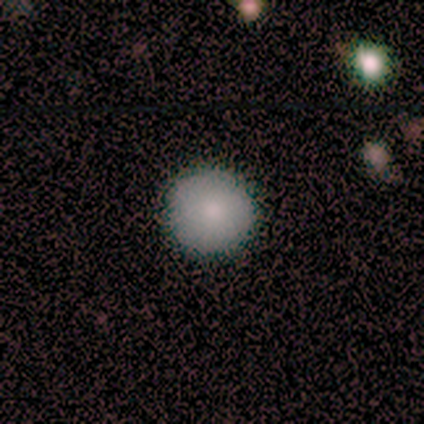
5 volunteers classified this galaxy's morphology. Smooth or featured? smooth (100%)
How rounded? round (100%)
Merging? none (100%)